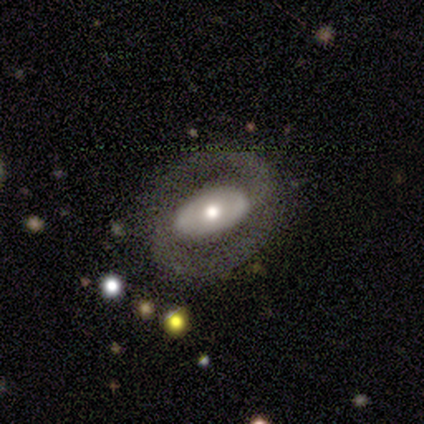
Q: Smooth or featured?
A: featured or disk (60%); runner-up: smooth (40%)
Q: Edge-on disk?
A: no (100%)
Q: Bar?
A: strong (67%); runner-up: weak (33%)
Q: Spiral arms?
A: yes (100%)
Q: Spiral winding?
A: medium (67%); runner-up: loose (33%)
Q: Spiral arm count?
A: 2 (100%)
Q: Bulge size?
A: moderate (67%); runner-up: large (33%)
Q: Merging?
A: none (80%); runner-up: minor disturbance (20%)